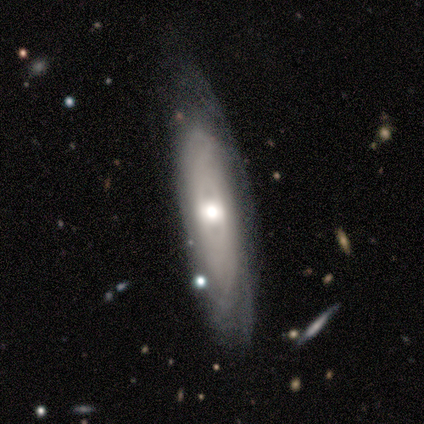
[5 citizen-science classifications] This is clearly a featured or disk galaxy (100%). It is likely not viewed edge-on (60%). Bar: clearly no (100%). Spiral arm pattern: likely no (67%). Central bulge: likely moderate (67%). Merging: clearly none (80%).